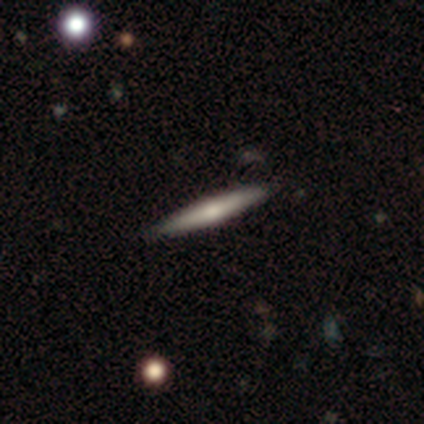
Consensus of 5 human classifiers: This appears to be a smooth galaxy with no disk features (60%) that is cigar-shaped (100%). Merging: none (100%).